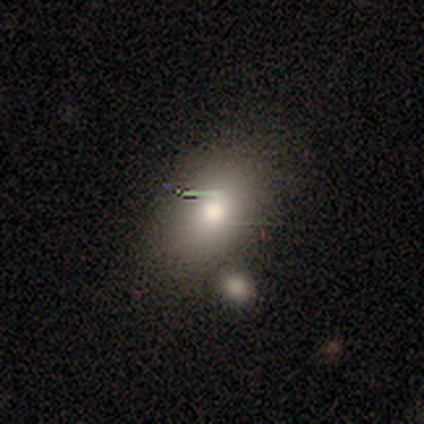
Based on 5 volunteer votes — Smooth or featured: smooth — 80% (featured or disk — 20%)
How rounded: in between — 100%
Merging: none — 60% (minor disturbance — 20%)